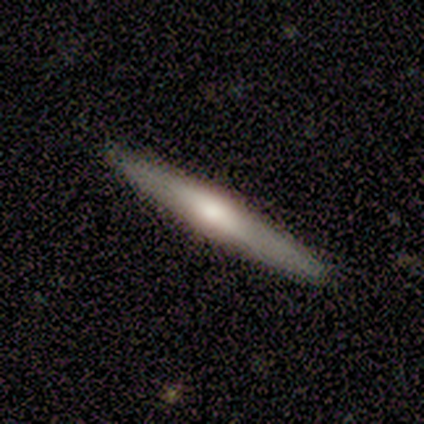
This appears to be a featured or disk galaxy (62%) viewed edge-on (88%) with a rounded central bulge (71%). Merging: none (92%).